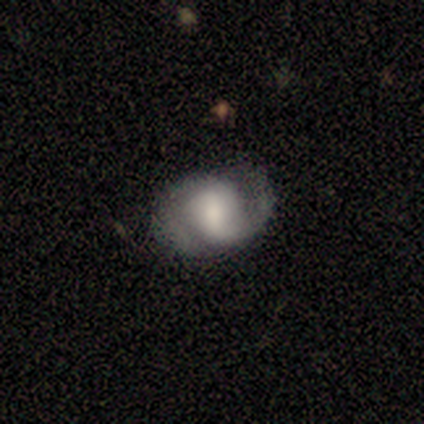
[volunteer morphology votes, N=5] smooth_or_featured: featured or disk (p=1.00)
disk_edge_on: no (p=1.00)
bar: strong (p=0.40) [tied with: weak p=0.40]
has_spiral_arms: yes (p=1.00)
spiral_winding: medium (p=0.60) [alt: tight p=0.20]
spiral_arm_count: 2 (p=0.80) [alt: can't tell p=0.20]
bulge_size: moderate (p=0.60) [alt: dominant p=0.20]
merging: none (p=0.60) [alt: minor disturbance p=0.40]